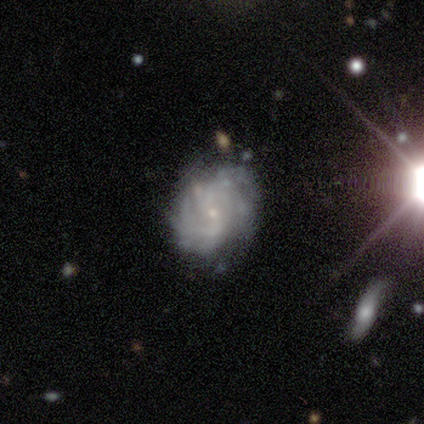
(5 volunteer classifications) A featured or disk galaxy (80%) with no bar (75%), 2 (25%, tied with 3, 4 and can't tell) tight (75%) spiral arms (100%) and a small central bulge (100%). Merging: none (40%, tied with minor disturbance).